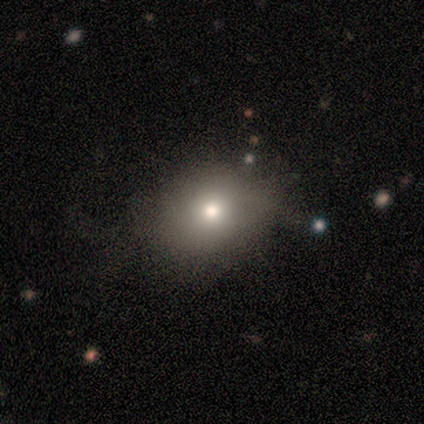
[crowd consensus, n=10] Smooth or featured? smooth (80%)
How rounded? round (50%, tied with in between)
Merging? minor disturbance (56%)